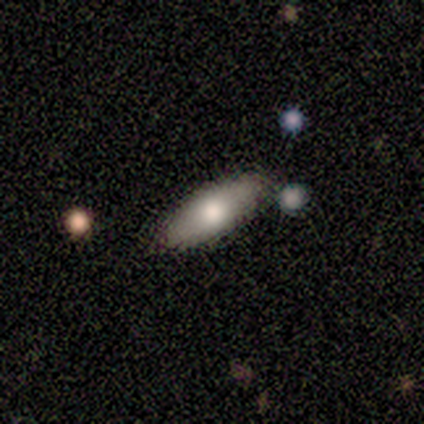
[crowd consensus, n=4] Overall: smooth (50%, tied with featured or disk). How rounded: in between (100%). Merging: none (100%).